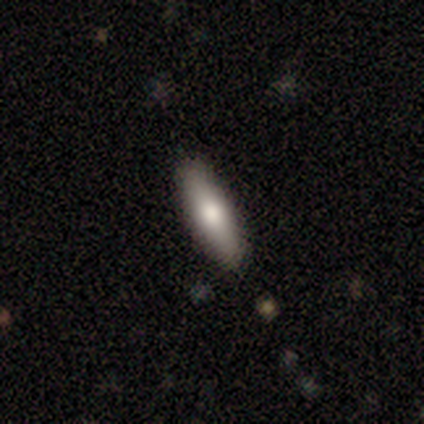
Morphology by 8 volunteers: Volunteers were most divided on "how rounded" (2-way tie): in between: 50%, cigar-shaped: 50%, round: 0%. More confident: merging — none (71%); smooth or featured — smooth (50%).